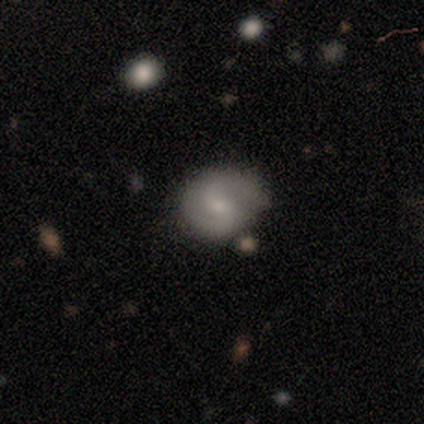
Volunteers were most divided on "merging" (2-way tie): none: 45%, minor disturbance: 45%, major disturbance: 9%, merger: 0%. More confident: edge-on disk — no (100%); spiral arms — yes (100%); spiral arm count — 2 (100%); spiral winding — medium (86%); bulge size — small (71%); smooth or featured — featured or disk (64%); bar — weak (57%).